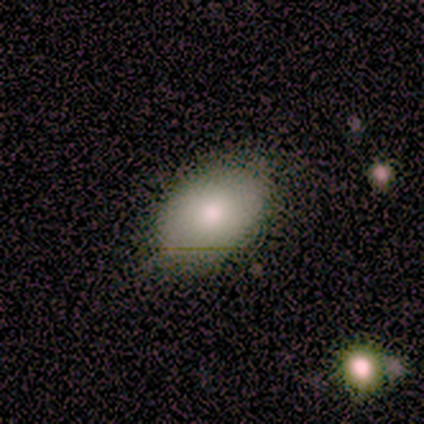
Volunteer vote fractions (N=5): Smooth or featured: smooth — 100%
How rounded: in between — 100%
Merging: none — 100%